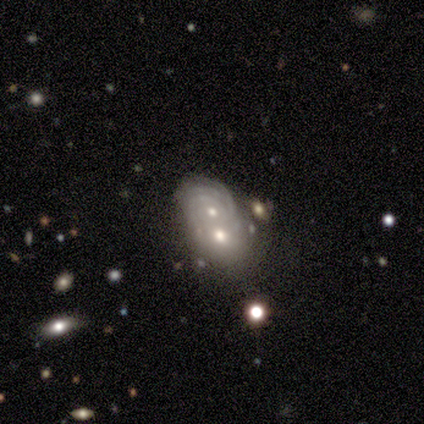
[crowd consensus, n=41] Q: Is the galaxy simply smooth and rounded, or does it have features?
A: featured or disk — 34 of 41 (83%).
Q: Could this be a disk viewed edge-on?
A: no — 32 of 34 (94%).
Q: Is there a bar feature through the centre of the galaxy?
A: no — 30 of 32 (94%).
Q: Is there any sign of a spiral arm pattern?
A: yes — 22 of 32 (69%).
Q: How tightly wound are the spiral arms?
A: tight — 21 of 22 (95%).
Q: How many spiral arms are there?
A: can't tell — 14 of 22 (64%).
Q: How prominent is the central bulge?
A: moderate — 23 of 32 (72%).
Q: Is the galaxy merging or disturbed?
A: merger — 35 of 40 (88%).